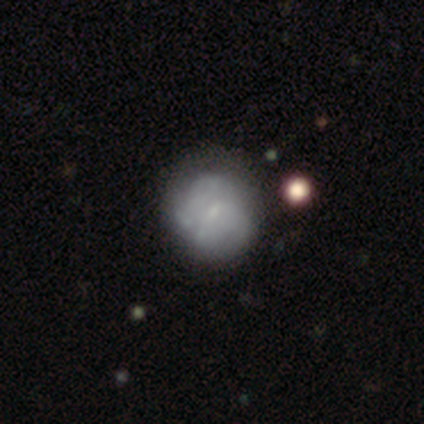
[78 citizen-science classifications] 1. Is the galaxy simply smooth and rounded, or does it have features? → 59% featured or disk, 35% smooth, 6% star or artifact.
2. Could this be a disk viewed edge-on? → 100% no, 0% yes.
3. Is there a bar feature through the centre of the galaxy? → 76% no, 22% weak, 2% strong.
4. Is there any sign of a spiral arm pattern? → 72% no, 28% yes.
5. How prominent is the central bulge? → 59% small, 35% none, 7% moderate, 0% dominant, 0% large.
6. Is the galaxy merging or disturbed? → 40% none, 14% minor disturbance, 8% merger, 4% major disturbance.